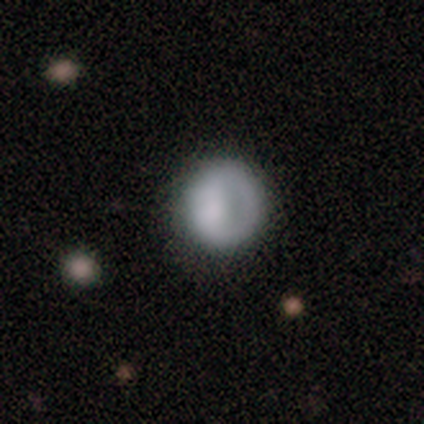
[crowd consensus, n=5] This appears to be a smooth galaxy with no disk features (80%) that is round (100%). Merging: none (100%).